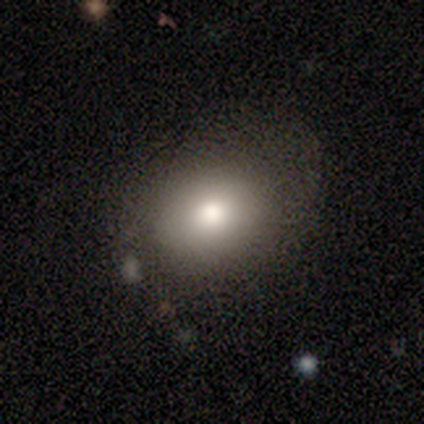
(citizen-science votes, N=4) smooth 100%, featured or disk 0%, star or artifact 0%. Down the decision tree: how rounded — round (50%, tied with in between); merging — none (75%).